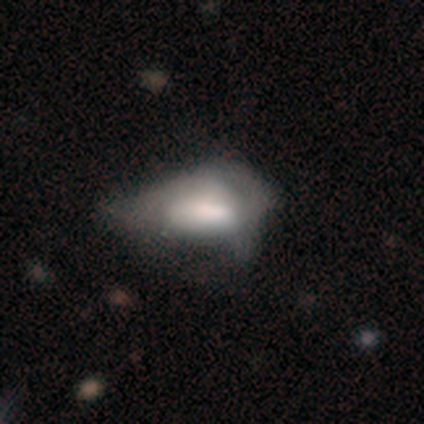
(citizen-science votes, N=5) Overall: smooth (100%). How rounded: in between (100%). Merging: minor disturbance (60%; major disturbance 40%).